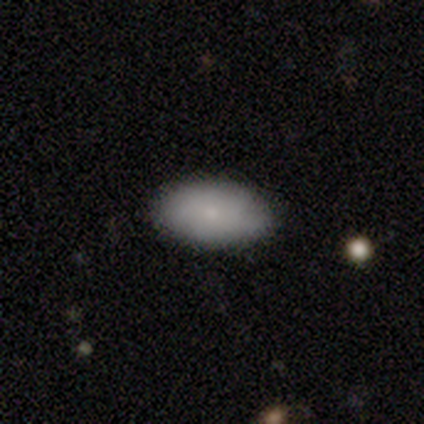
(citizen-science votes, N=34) Q: Smooth or featured?
A: smooth (79%); runner-up: featured or disk (12%)
Q: How rounded?
A: in between (96%); runner-up: cigar-shaped (4%)
Q: Merging?
A: none (84%); runner-up: minor disturbance (16%)